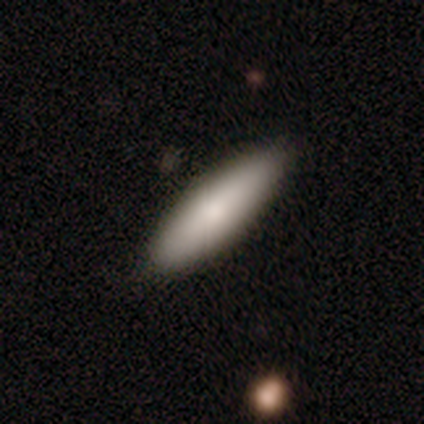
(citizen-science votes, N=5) Volunteers were most divided on "how rounded": in between: 75%, cigar-shaped: 25%, round: 0%. More confident: smooth or featured — smooth (80%); merging — none (80%).